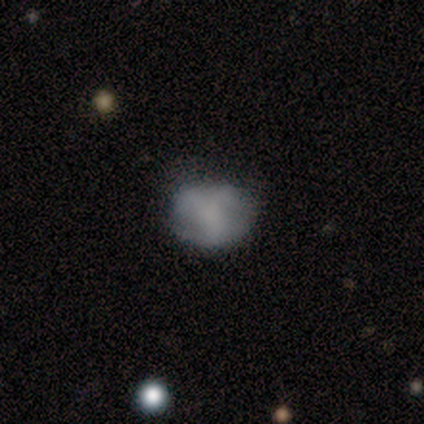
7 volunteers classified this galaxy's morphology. Smooth or featured?
  - smooth: 43% * (tied)
  - featured or disk: 43% * (tied)
  - star or artifact: 14%
How rounded?
  - round: 67% *
  - in between: 33%
  - cigar-shaped: 0%
Merging?
  - none: 67% *
  - minor disturbance: 33%
  - major disturbance: 0%
  - merger: 0%